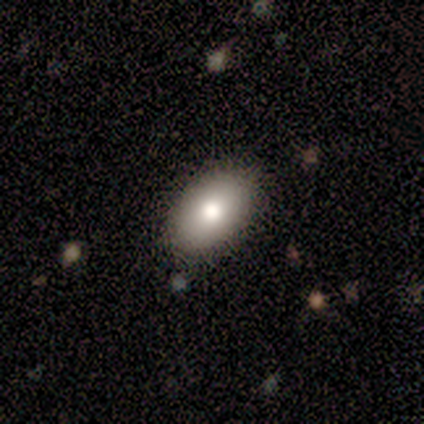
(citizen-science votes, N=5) Q: Smooth or featured?
A: smooth (60%); runner-up: featured or disk (40%)
Q: How rounded?
A: in between (100%)
Q: Merging?
A: none (100%)